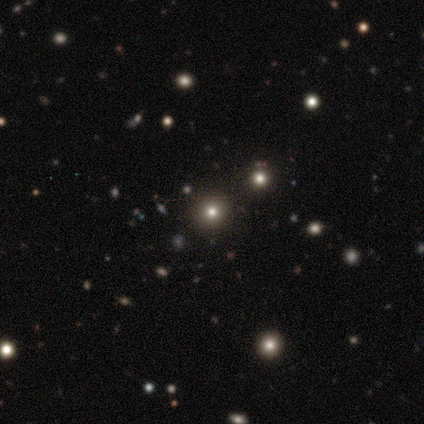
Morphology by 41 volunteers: star or artifact 51%, smooth 44%, featured or disk 5%.